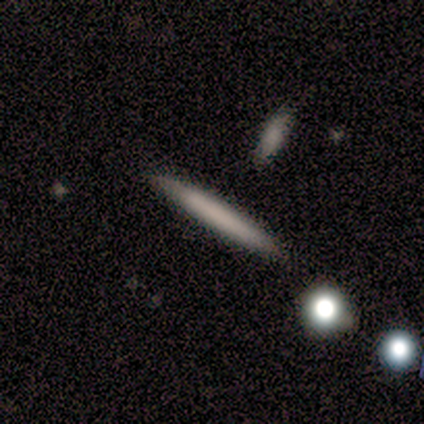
Volunteers were most divided on "smooth or featured": smooth: 75%, featured or disk: 25%, star or artifact: 0%. More confident: how rounded — cigar-shaped (100%); merging — none (100%).